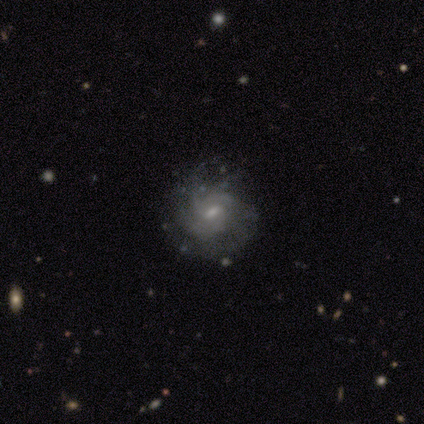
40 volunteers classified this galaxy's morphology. Smooth or featured? 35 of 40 (88%) said featured or disk. Edge-on disk? 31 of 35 (89%) said no. Bar? 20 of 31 (65%) said weak. Spiral arms? 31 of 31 (100%) said yes. Spiral winding? 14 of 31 (45%) said medium. Spiral arm count? 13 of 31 (42%) said 3. Bulge size? 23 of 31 (74%) said small. Merging? 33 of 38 (87%) said none.